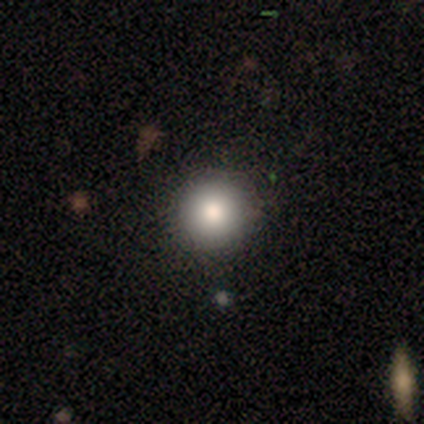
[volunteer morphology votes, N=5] smooth 80%, featured or disk 20%, star or artifact 0%. Down the decision tree: how rounded — round (100%); merging — none (100%).